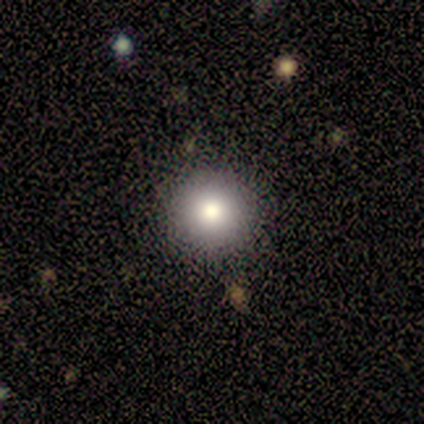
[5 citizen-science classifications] Smooth or featured? smooth (100%)
How rounded? round (100%)
Merging? none (100%)